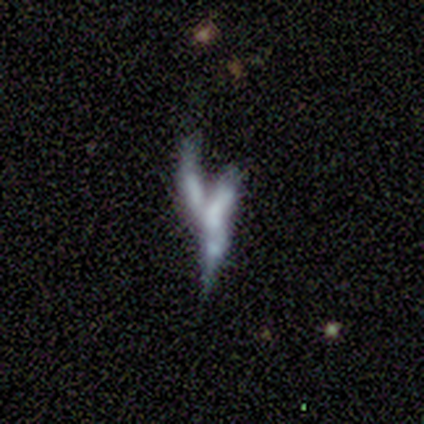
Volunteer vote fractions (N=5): smooth_or_featured: smooth (p=0.40) [tied with: featured or disk p=0.40]
how_rounded: in between (p=0.50) [tied with: cigar-shaped p=0.50]
merging: merger (p=0.75) [alt: major disturbance p=0.25]